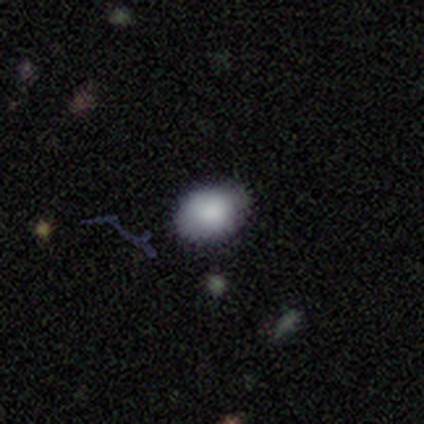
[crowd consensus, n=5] Smooth or featured? smooth (80%)
How rounded? round (50%, tied with in between)
Merging? none (80%)